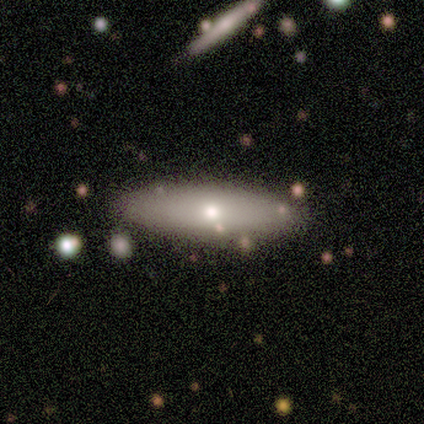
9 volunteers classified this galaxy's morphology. Volunteers were most divided on "how rounded" (2-way tie): in between: 50%, cigar-shaped: 50%, round: 0%. More confident: merging — none (75%); smooth or featured — smooth (67%).